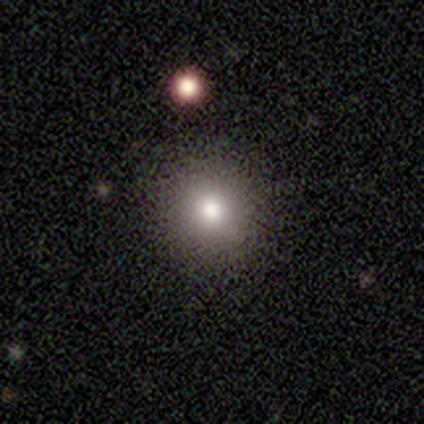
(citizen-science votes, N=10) Overall: smooth (70%; star or artifact 30%). How rounded: round (100%). Merging: none (100%).